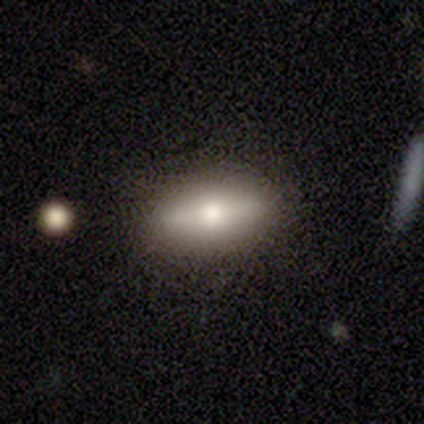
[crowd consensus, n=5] A featured or disk galaxy (60%) viewed edge-on (67%) with a rounded central bulge (100%). Merging: none (100%).